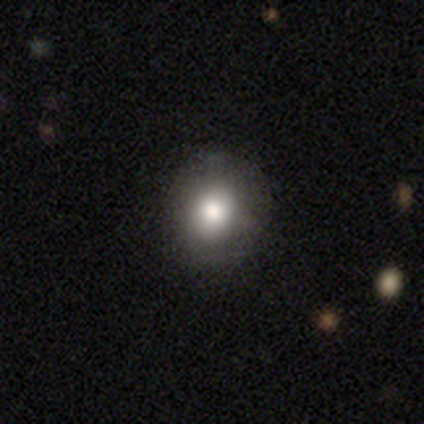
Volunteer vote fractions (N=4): A smooth galaxy with no disk features (75%) that is round (67%). Merging: none (100%).